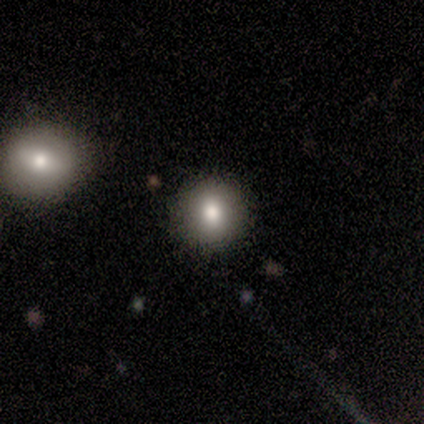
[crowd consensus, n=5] Morphology: type=smooth (80%); roundness=round (100%); merging=none (100%).